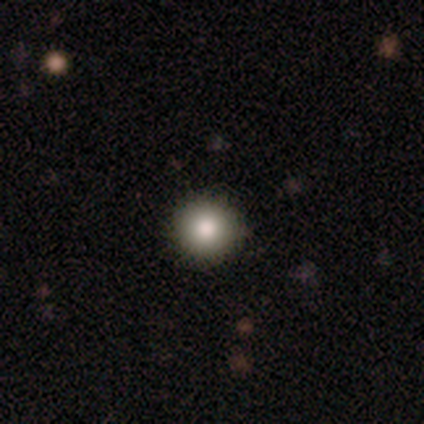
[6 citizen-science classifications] Morphology: type=smooth (83%); roundness=round (80%); merging=none (100%).